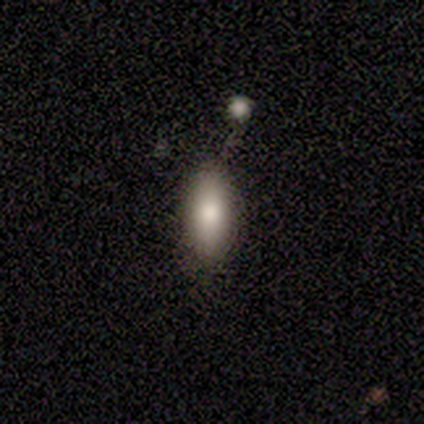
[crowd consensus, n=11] This appears to be a smooth galaxy with no disk features (82%) that is in between round and cigar-shaped (78%). Merging: none (73%).